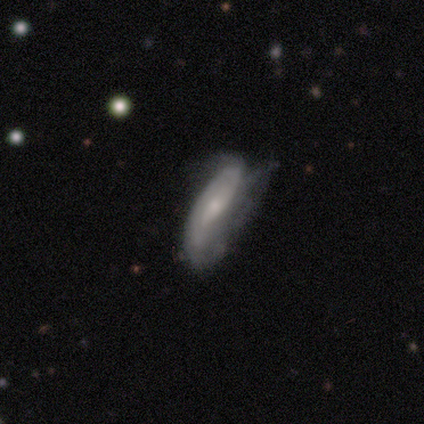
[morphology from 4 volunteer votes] Volunteers were most divided on "smooth or featured" (2-way tie): smooth: 50%, featured or disk: 50%, star or artifact: 0%. More confident: how rounded — in between (100%); merging — none (50%).